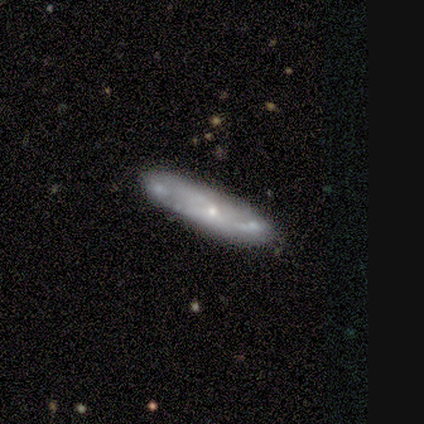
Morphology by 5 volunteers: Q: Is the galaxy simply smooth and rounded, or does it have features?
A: smooth — 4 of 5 (80%).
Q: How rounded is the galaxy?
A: cigar-shaped — 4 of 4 (100%).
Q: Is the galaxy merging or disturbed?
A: none — 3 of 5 (60%).